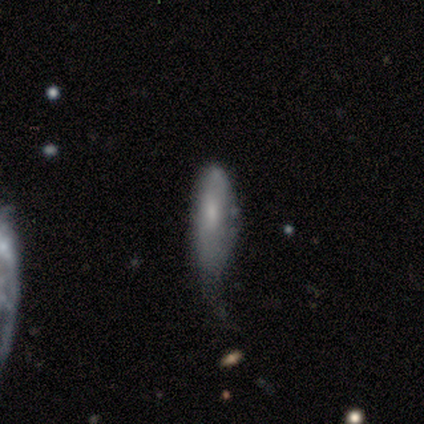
Smooth or featured: smooth — 47% (tied with featured or disk — 47%)
How rounded: in between — 56% (cigar-shaped — 44%)
Merging: minor disturbance — 48% (major disturbance — 30%)